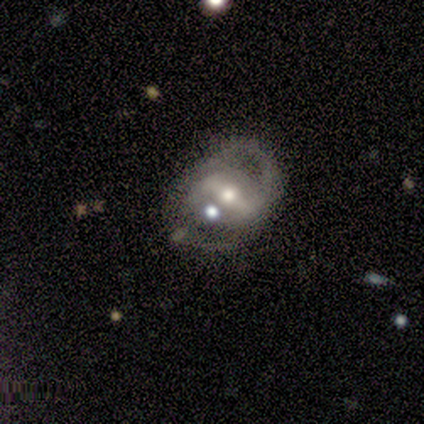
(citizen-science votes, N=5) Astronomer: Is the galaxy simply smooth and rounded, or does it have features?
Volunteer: featured or disk — 60% (runner-up: smooth, 40%).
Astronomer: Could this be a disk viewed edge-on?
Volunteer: no — 67%.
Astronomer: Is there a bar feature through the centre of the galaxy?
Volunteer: strong — 50%, tied with weak at 50%.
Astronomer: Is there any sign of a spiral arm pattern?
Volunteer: yes — 50%, tied with no at 50%.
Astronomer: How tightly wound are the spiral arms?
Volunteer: medium — 100%.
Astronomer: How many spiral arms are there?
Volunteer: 2 — 100%.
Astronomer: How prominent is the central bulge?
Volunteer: moderate — 100%.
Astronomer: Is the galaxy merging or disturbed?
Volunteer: major disturbance — 40%, tied with merger at 40%.